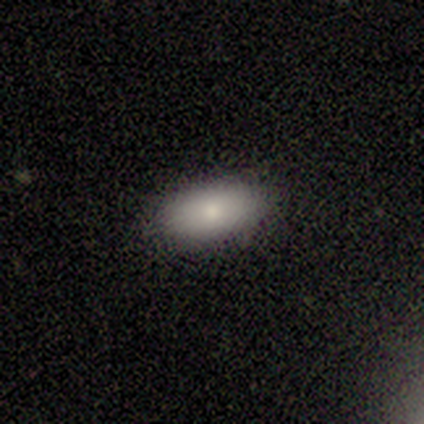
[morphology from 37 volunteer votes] smooth_or_featured: smooth (p=0.81) [alt: star or artifact p=0.11]
how_rounded: in between (p=0.93) [alt: round p=0.03]
merging: none (p=0.91) [alt: minor disturbance p=0.06]